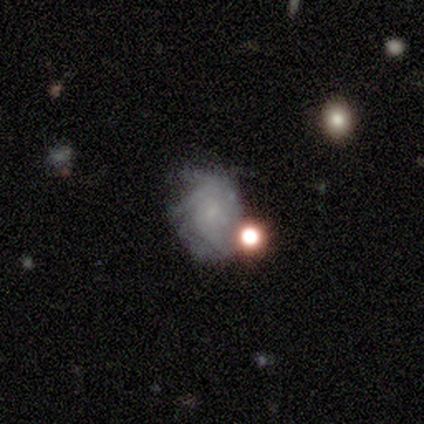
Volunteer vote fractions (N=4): Overall: featured or disk (50%; smooth 25%). Edge-on disk: no (100%). Bar: weak (50%, tied with no). Spiral arms: yes (100%). Spiral arm count: can't tell (100%). Spiral winding: tight (100%). Bulge size: small (100%). Merging: none (33%, tied with minor disturbance and major disturbance).